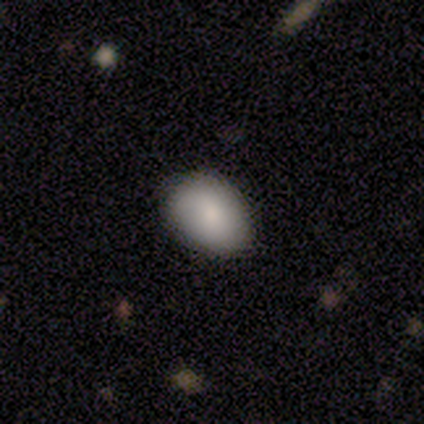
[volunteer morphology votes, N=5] Smooth or featured? smooth (100%)
How rounded? in between (60%)
Merging? none (60%)